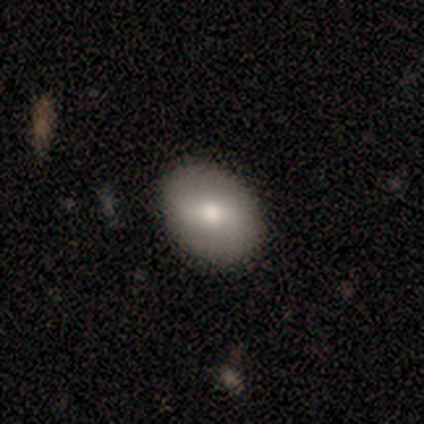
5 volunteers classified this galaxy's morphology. Smooth or featured? 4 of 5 (80%) said smooth. How rounded? 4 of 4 (100%) said in between. Merging? 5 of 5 (100%) said none.